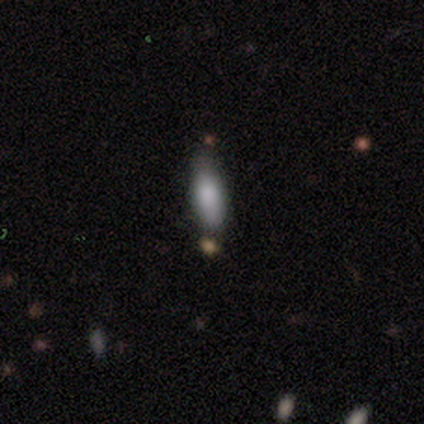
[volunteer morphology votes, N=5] smooth 100%, featured or disk 0%, star or artifact 0%. Down the decision tree: how rounded — cigar-shaped (60%); merging — none (80%).